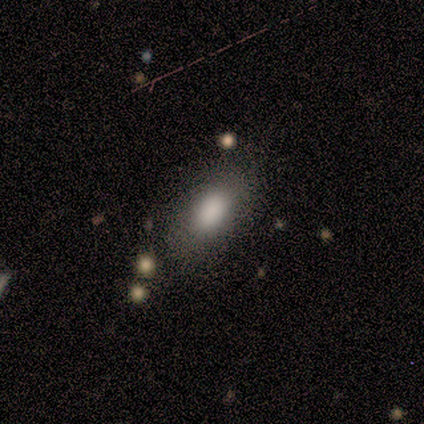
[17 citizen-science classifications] This is clearly a smooth galaxy (100%). How rounded: clearly in between (88%). Merging: likely none (76%).